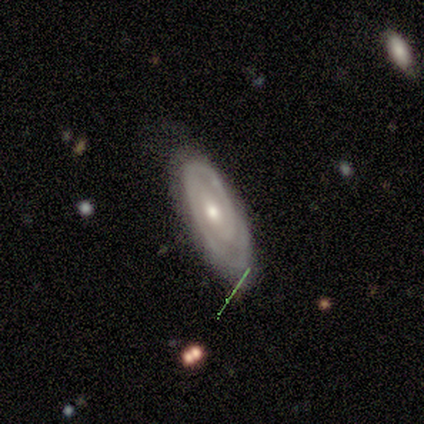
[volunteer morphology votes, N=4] This appears to be a featured or disk galaxy (75%) with a strong bar (33%, tied with weak and no), 2 (67%) tight (67%) spiral arms (100%) and a moderate central bulge (67%). Merging: none (75%).